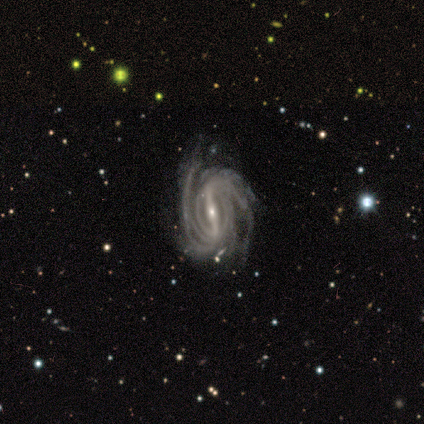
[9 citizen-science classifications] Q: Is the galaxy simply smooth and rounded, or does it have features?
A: featured or disk — 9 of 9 (100%).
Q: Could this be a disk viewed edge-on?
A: no — 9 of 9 (100%).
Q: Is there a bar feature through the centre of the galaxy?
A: strong — 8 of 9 (89%).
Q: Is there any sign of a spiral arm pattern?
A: yes — 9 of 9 (100%).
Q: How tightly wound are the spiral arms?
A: tight — 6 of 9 (67%).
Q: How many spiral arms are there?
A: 2 — 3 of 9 (33%, tied with more than 4).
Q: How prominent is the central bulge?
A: small — 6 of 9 (67%).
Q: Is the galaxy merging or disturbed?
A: none — 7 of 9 (78%).